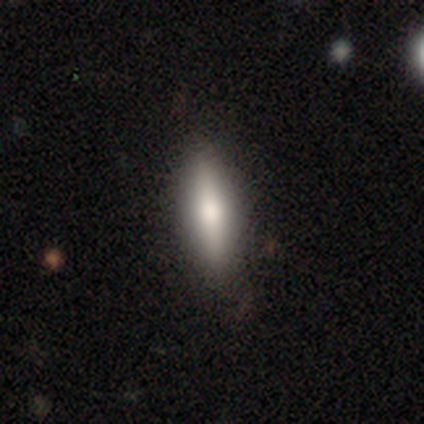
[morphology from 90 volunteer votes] type=smooth (66%); roundness=cigar-shaped (66%); merging=none (83%).